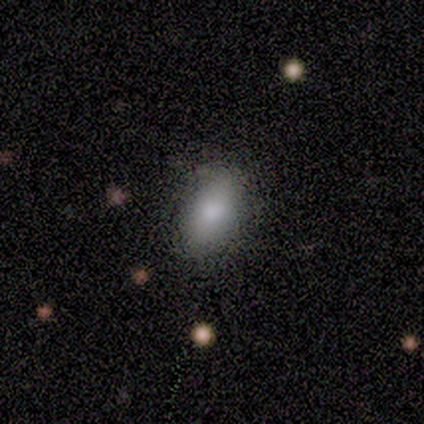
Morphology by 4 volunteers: smooth 100%, featured or disk 0%, star or artifact 0%. Down the decision tree: how rounded — in between (100%); merging — none (100%).